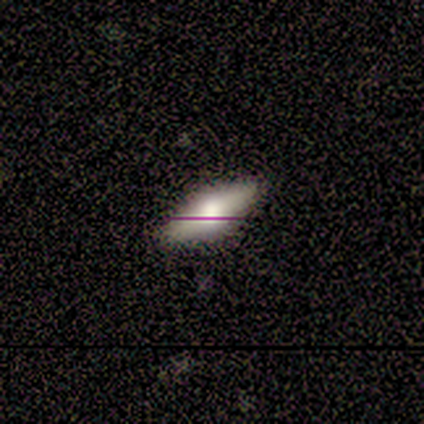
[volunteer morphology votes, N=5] This is clearly a smooth galaxy (80%). How rounded: likely in between (75%). Merging: clearly none (100%).